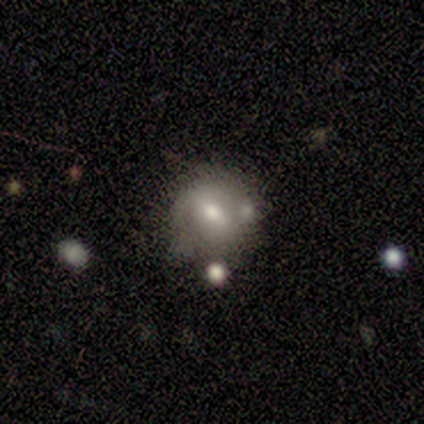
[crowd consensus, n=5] smooth_or_featured: smooth (p=0.80) [alt: featured or disk p=0.20]
how_rounded: round (p=1.00)
merging: none (p=0.60) [alt: minor disturbance p=0.40]